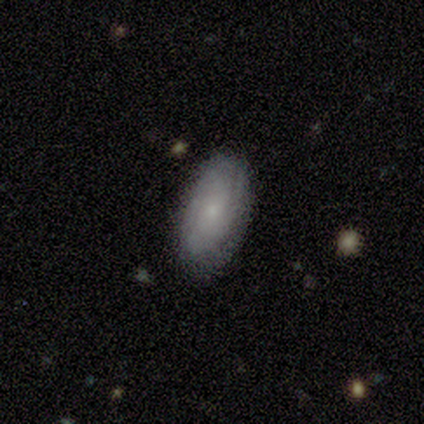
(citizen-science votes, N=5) Volunteers were most divided on "smooth or featured": smooth: 60%, featured or disk: 40%, star or artifact: 0%. More confident: how rounded — in between (67%); merging — none (60%).